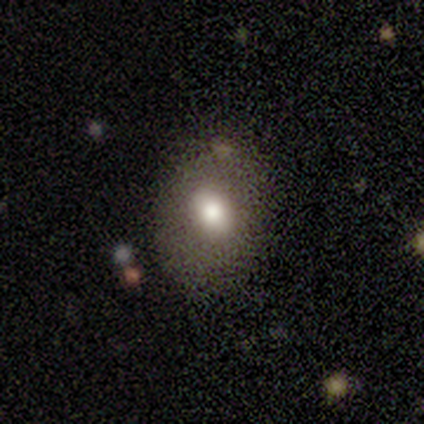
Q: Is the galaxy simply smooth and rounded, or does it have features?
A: smooth — 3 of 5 (60%).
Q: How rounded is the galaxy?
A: round — 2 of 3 (67%).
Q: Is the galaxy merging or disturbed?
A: none — 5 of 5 (100%).